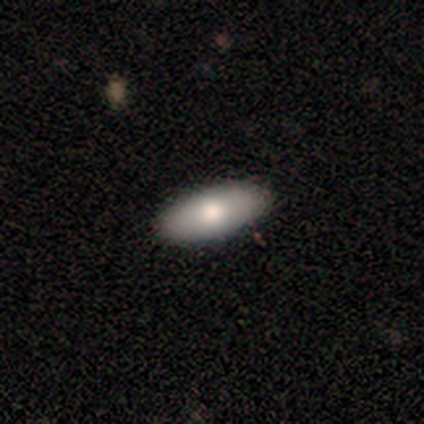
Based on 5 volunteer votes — Smooth or featured?
  - smooth: 80% *
  - featured or disk: 20%
  - star or artifact: 0%
How rounded?
  - in between: 100% *
  - round: 0%
  - cigar-shaped: 0%
Merging?
  - none: 100% *
  - minor disturbance: 0%
  - major disturbance: 0%
  - merger: 0%